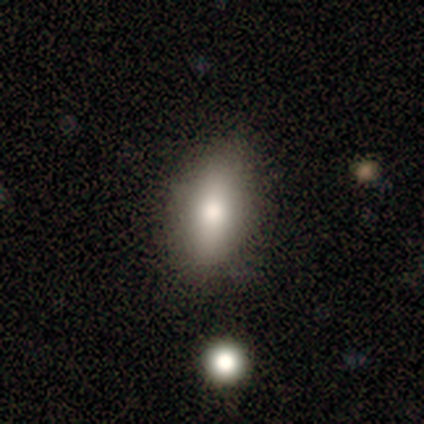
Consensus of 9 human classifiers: This is likely a smooth galaxy (67%). How rounded: clearly in between (100%). Merging: likely none (71%).